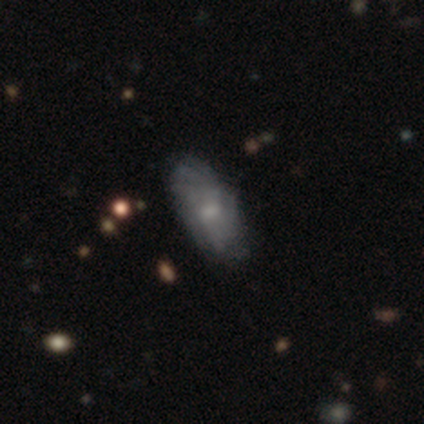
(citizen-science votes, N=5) Smooth or featured? 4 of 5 (80%) said featured or disk. Edge-on disk? 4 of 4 (100%) said no. Bar? 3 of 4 (75%) said weak. Spiral arms? 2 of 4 (50%, tied with no) said yes. Spiral winding? 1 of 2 (50%, tied with medium) said tight. Spiral arm count? 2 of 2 (100%) said can't tell. Bulge size? 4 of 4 (100%) said small. Merging? 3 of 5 (60%) said minor disturbance.